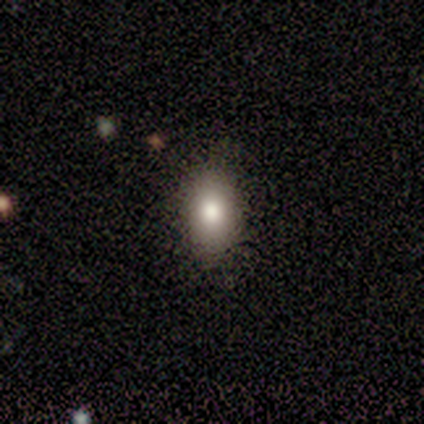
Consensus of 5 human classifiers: smooth-or-featured: smooth: 40% (tied) | featured or disk: 40% (tied) | star or artifact: 20%
  how-rounded: in between: 100% | round: 0% | cigar-shaped: 0%
  merging: none: 75% | major disturbance: 25% | minor disturbance: 0% | merger: 0%